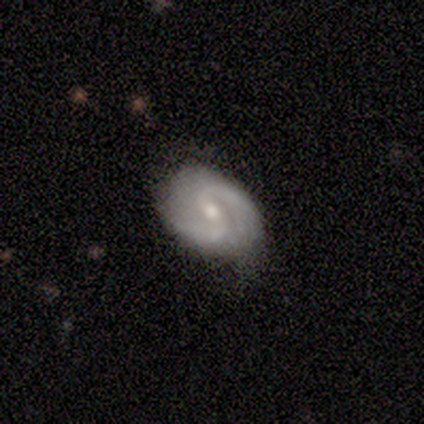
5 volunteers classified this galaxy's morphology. Volunteers were most divided on "bulge size": moderate: 60%, small: 40%, dominant: 0%, large: 0%, none: 0%. More confident: smooth or featured — featured or disk (100%); edge-on disk — no (100%); spiral arms — yes (100%); spiral arm count — 2 (100%); merging — none (100%); spiral winding — medium (80%); bar — weak (60%).